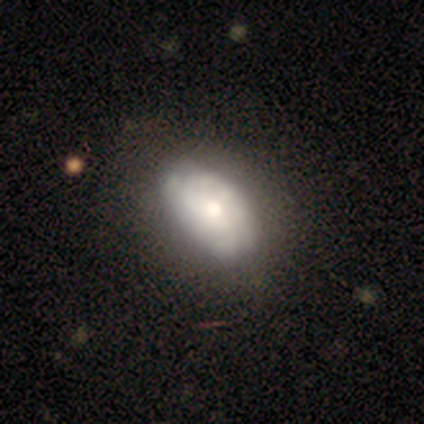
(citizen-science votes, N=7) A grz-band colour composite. It shows a featured or disk galaxy (86%) with no bar (83%), tight (50%) spiral arms (100%) and a moderate central bulge (67%). Merging: none (43%, tied with minor disturbance).